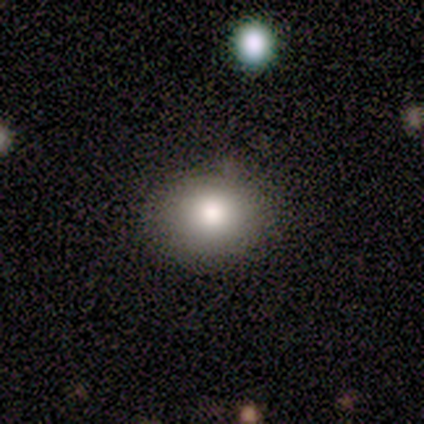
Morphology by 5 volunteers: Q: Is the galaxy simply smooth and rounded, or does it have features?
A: smooth — 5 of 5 (100%).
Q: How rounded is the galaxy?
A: round — 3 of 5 (60%).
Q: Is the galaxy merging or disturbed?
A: none — 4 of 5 (80%).